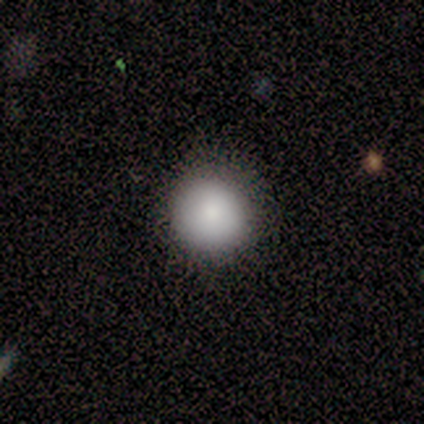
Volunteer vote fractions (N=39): Smooth or featured?
  - smooth: 97% *
  - featured or disk: 3%
  - star or artifact: 0%
How rounded?
  - round: 97% *
  - in between: 3%
  - cigar-shaped: 0%
Merging?
  - none: 87% *
  - minor disturbance: 8%
  - major disturbance: 5%
  - merger: 0%